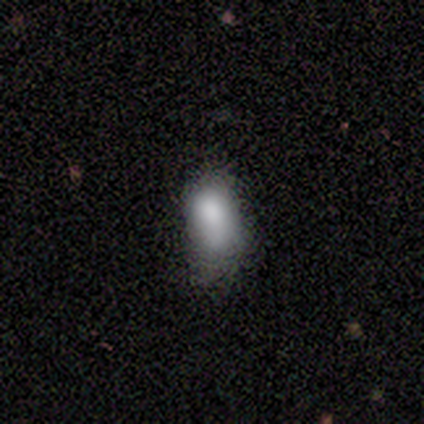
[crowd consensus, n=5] Smooth or featured? smooth (100%)
How rounded? in between (100%)
Merging? minor disturbance (80%)